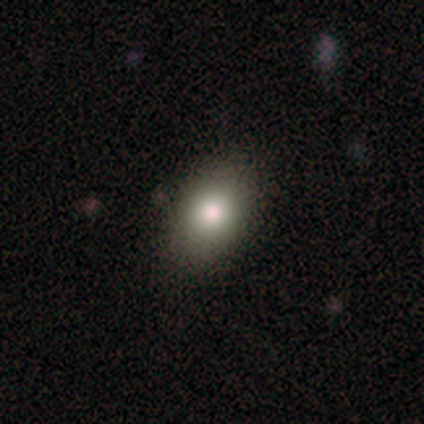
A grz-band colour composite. It shows a smooth galaxy with no disk features (83%) that is in between round and cigar-shaped (84%). Merging: none (44%).